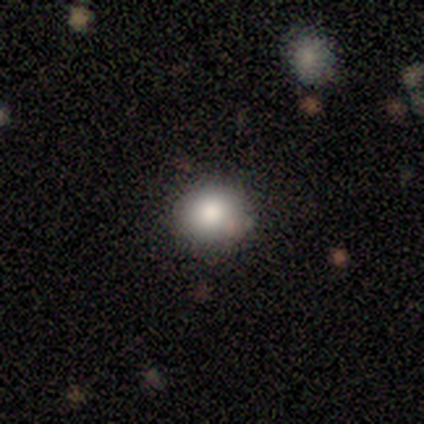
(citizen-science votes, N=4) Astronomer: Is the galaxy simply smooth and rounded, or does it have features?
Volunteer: smooth — 75%.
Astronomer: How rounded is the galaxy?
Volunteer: round — 100%.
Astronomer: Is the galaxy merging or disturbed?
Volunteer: none — 100%.